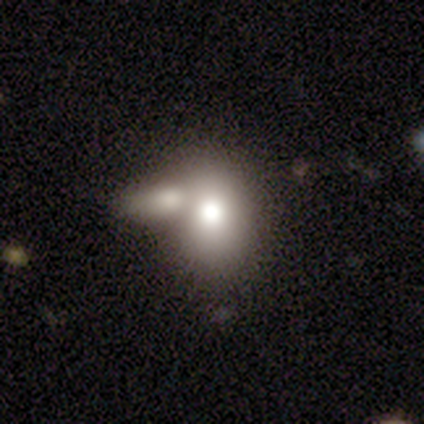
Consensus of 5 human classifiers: This appears to be a smooth galaxy with no disk features (80%) that is in between round and cigar-shaped (75%). Merging: minor disturbance (40%, tied with merger).